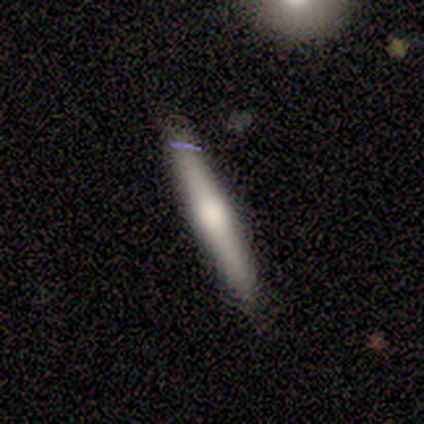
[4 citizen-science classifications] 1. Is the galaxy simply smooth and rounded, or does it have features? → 75% featured or disk, 25% smooth, 0% star or artifact.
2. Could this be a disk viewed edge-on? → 100% yes, 0% no.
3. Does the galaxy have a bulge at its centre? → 100% rounded, 0% boxy, 0% none.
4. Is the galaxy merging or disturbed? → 75% none, 25% minor disturbance, 0% major disturbance, 0% merger.